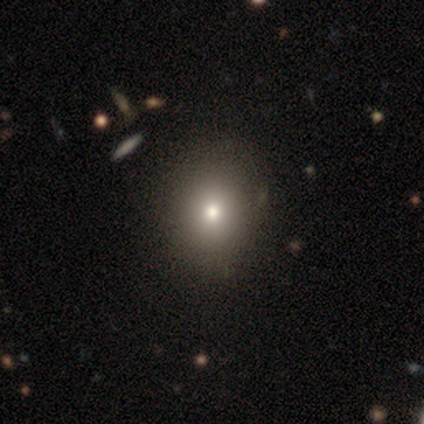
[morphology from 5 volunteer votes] smooth-or-featured: smooth: 80% | featured or disk: 20% | star or artifact: 0%
  how-rounded: round: 100% | in between: 0% | cigar-shaped: 0%
  merging: none: 100% | minor disturbance: 0% | major disturbance: 0% | merger: 0%